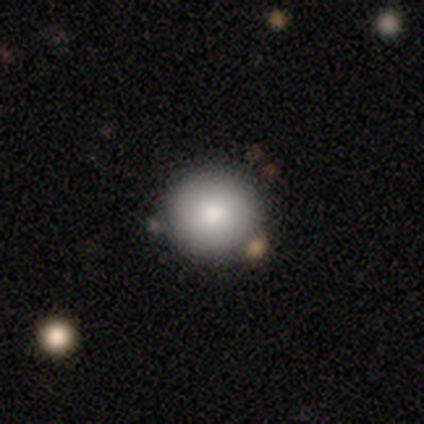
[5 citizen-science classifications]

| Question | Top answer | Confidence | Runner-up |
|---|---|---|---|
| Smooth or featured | smooth | 100% | — |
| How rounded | round | 100% | — |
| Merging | none | 100% | — |